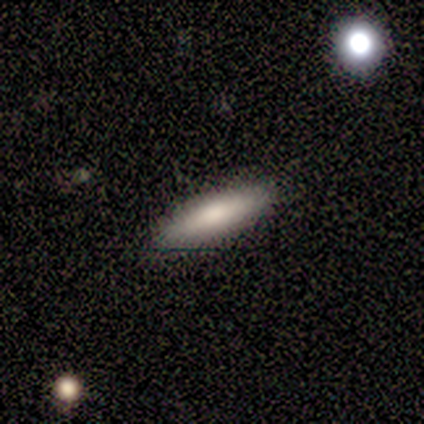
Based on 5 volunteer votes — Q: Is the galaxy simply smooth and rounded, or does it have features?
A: smooth — 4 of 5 (80%).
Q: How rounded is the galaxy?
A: cigar-shaped — 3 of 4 (75%).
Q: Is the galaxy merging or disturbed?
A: none — 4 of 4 (100%).